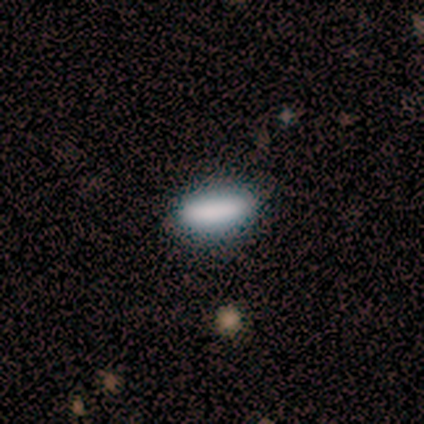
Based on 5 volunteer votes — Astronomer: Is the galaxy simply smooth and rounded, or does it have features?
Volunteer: smooth — 80%.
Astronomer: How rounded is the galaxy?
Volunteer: in between — 75%.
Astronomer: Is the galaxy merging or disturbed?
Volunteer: none — 100%.